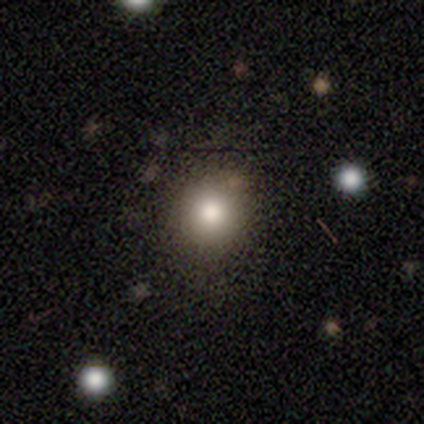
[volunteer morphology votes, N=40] smooth-or-featured: smooth: 80% | star or artifact: 12% | featured or disk: 8%
  how-rounded: round: 91% | in between: 9% | cigar-shaped: 0%
  merging: none: 71% | minor disturbance: 9% | major disturbance: 0% | merger: 0%